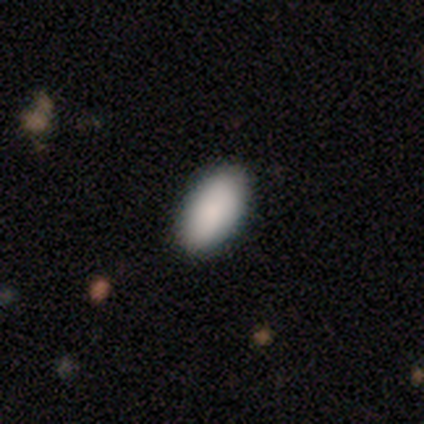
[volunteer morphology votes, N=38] Smooth or featured: smooth — 100%
How rounded: in between — 92% (round — 5%)
Merging: none — 97% (minor disturbance — 3%)